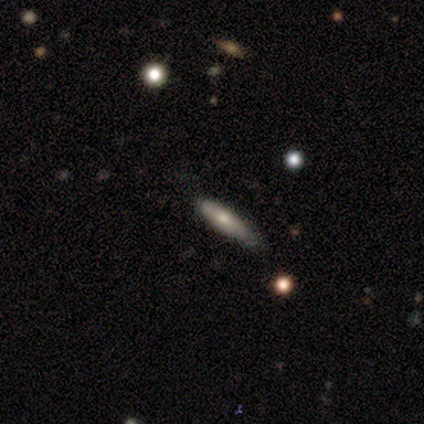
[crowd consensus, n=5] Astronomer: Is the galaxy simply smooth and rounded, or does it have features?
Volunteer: smooth — 60% (runner-up: featured or disk, 40%).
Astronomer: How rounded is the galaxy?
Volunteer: cigar-shaped — 100%.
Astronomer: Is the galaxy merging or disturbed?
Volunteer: minor disturbance — 60% (runner-up: none, 40%).